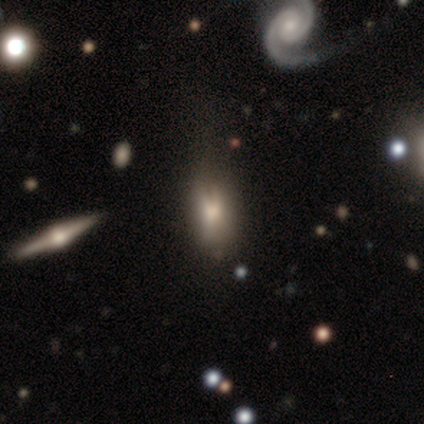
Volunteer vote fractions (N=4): This appears to be a smooth galaxy with no disk features (100%) that is in between round and cigar-shaped (100%). Merging: none (100%).